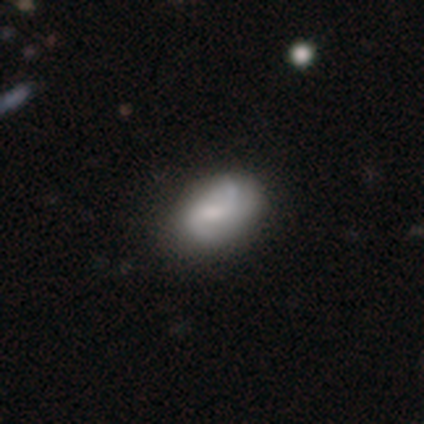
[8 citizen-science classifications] A featured or disk galaxy (75%) with a weak bar (40%, tied with no), 2 (80%) loose (60%) spiral arms (100%) and a moderate central bulge (60%).

Vote fractions:
- Smooth or featured? featured or disk: 75% / smooth: 12% / star or artifact: 12%
- Edge-on disk? no: 83% / yes: 17%
- Bar? weak: 40% (tied) / no: 40% (tied) / strong: 20%
- Spiral arms? yes: 100% / no: 0%
- Spiral winding? loose: 60% / medium: 40% / tight: 0%
- Spiral arm count? 2: 80% / 3: 20% / 1: 0% / 4: 0% / more than 4: 0% / can't tell: 0%
- Bulge size? moderate: 60% / large: 40% / dominant: 0% / small: 0% / none: 0%
- Merging? none: 57% / minor disturbance: 43% / major disturbance: 0% / merger: 0%